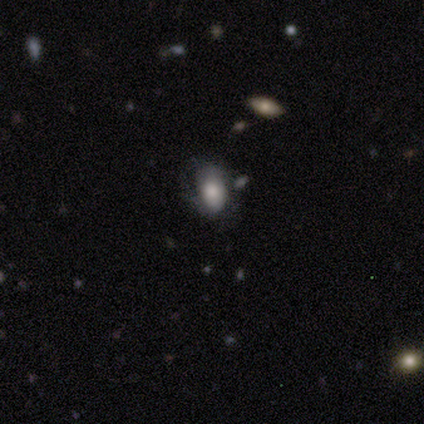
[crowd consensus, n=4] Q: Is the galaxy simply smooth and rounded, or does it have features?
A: smooth — 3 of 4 (75%).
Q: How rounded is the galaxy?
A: in between — 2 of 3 (67%).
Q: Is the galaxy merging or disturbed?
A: none — 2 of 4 (50%).